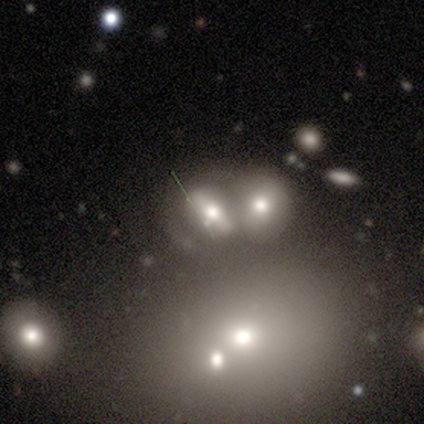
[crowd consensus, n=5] This is marginally a smooth galaxy (40%, tied with star or artifact). How rounded: possibly in between (50%, tied with cigar-shaped). Merging: marginally none (33%, tied with minor disturbance and merger).